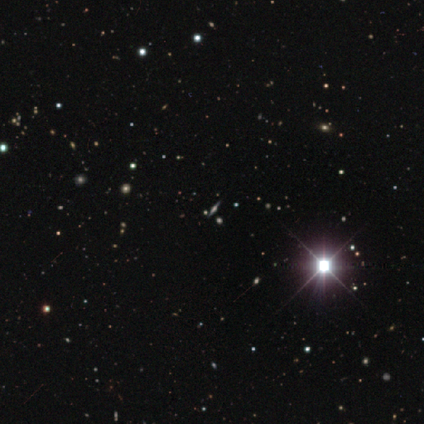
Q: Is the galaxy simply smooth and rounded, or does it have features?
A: star or artifact — 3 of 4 (75%).